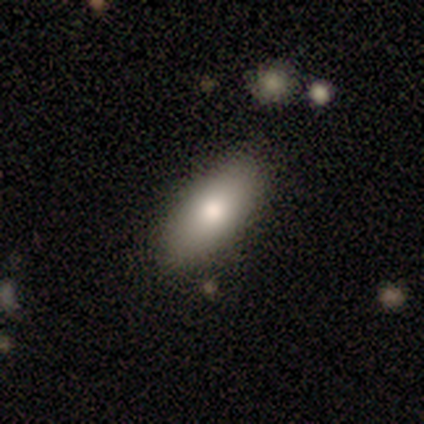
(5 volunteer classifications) Smooth or featured?
  - smooth: 60% *
  - featured or disk: 20%
  - star or artifact: 20%
How rounded?
  - in between: 67% *
  - cigar-shaped: 33%
  - round: 0%
Merging?
  - none: 75% *
  - minor disturbance: 25%
  - major disturbance: 0%
  - merger: 0%